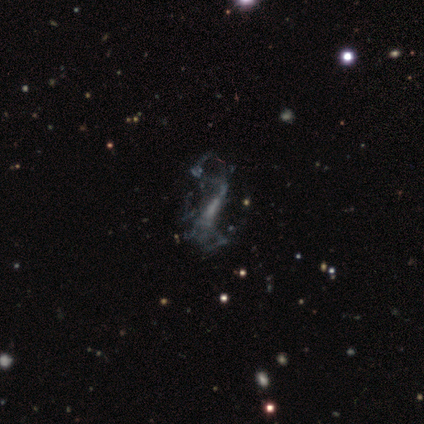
A featured or disk galaxy (60%) with no bar (50%), no spiral arms (55%) and no central bulge (55%).

Vote fractions:
- Smooth or featured? featured or disk: 60% / star or artifact: 32% / smooth: 8%
- Edge-on disk? no: 92% / yes: 8%
- Bar? no: 50% / weak: 36% / strong: 14%
- Spiral arms? no: 55% / yes: 45%
- Bulge size? none: 55% / small: 32% / moderate: 14% / dominant: 0% / large: 0%
- Merging? major disturbance: 56% / none: 33% / merger: 7% / minor disturbance: 4%